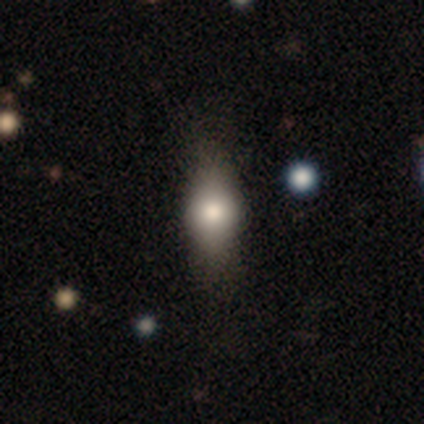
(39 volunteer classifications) This appears to be a smooth galaxy with no disk features (74%) that is in between round and cigar-shaped (59%). Merging: none (47%).